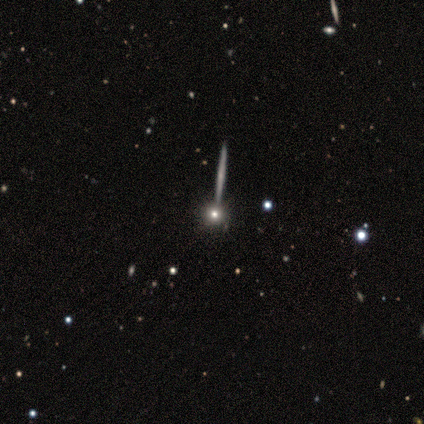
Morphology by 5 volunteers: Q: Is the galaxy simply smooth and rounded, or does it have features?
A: featured or disk — 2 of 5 (40%, tied with star or artifact).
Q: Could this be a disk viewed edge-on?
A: yes — 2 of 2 (100%).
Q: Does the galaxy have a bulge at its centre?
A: none — 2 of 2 (100%).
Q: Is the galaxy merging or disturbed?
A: none — 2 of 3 (67%).